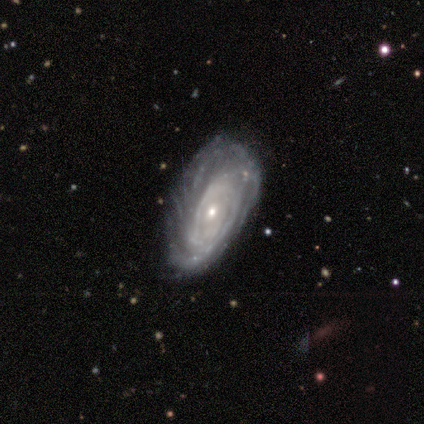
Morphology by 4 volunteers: This appears to be a featured or disk galaxy (75%) with no bar (67%), tight (67%) spiral arms (100%) and a small central bulge (67%). Merging: none (50%).